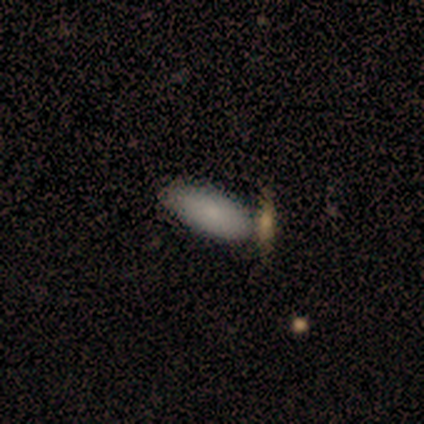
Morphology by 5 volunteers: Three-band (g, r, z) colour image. It shows a smooth galaxy with no disk features (100%) that is in between round and cigar-shaped (80%). Merging: none (80%).